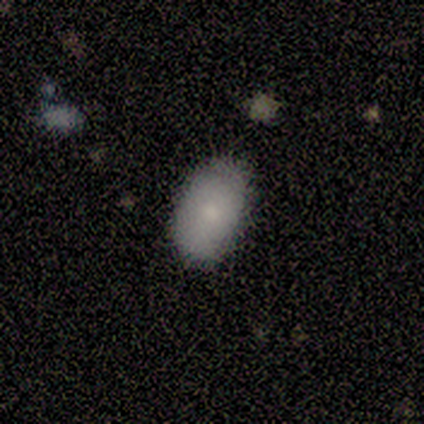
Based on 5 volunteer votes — This appears to be a smooth galaxy with no disk features (60%) that is in between round and cigar-shaped (100%). Merging: none (100%).